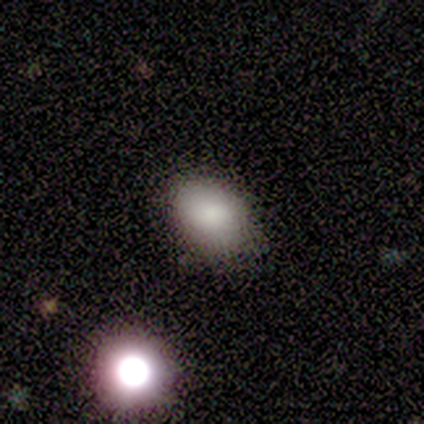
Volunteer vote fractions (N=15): A smooth galaxy with no disk features (87%) that is in between round and cigar-shaped (85%). Merging: none (54%).